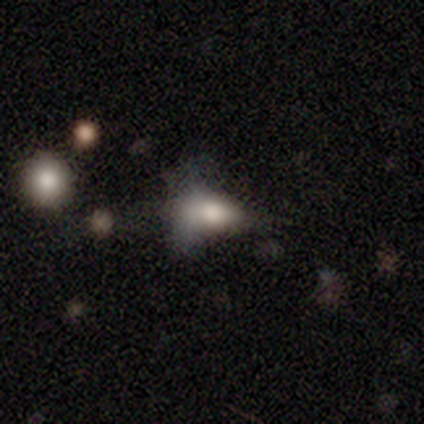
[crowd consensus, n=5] Q: Smooth or featured?
A: smooth (60%); runner-up: featured or disk (40%)
Q: How rounded?
A: in between (67%); runner-up: round (33%)
Q: Merging?
A: major disturbance (80%); runner-up: minor disturbance (20%)